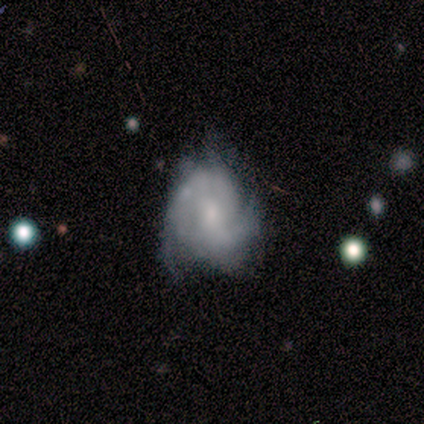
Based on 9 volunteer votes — A featured or disk galaxy (78%) with a weak bar (50%, tied with no), 2 (50%, tied with can't tell) tight (50%) spiral arms (67%) and a moderate central bulge (33%, tied with small). Merging: none (50%).